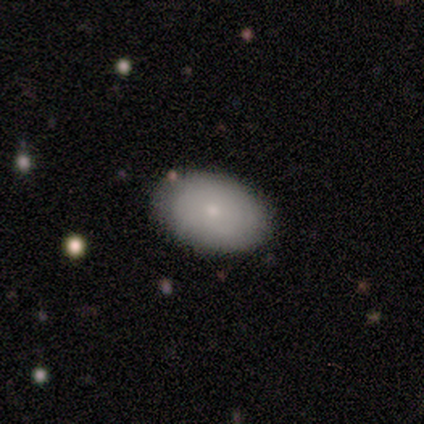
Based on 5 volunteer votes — Volunteers were most divided on "how rounded": in between: 67%, round: 33%, cigar-shaped: 0%. More confident: merging — none (100%); smooth or featured — smooth (60%).